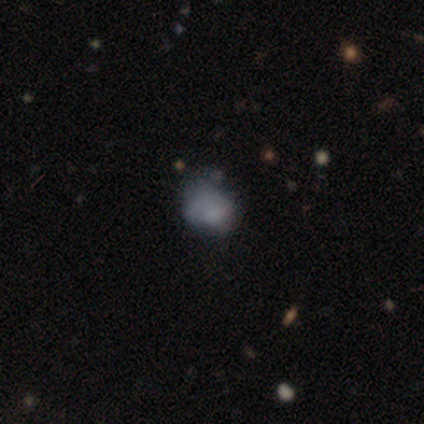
Morphology: type=smooth (54%); roundness=in between (62%); merging=minor disturbance (48%).